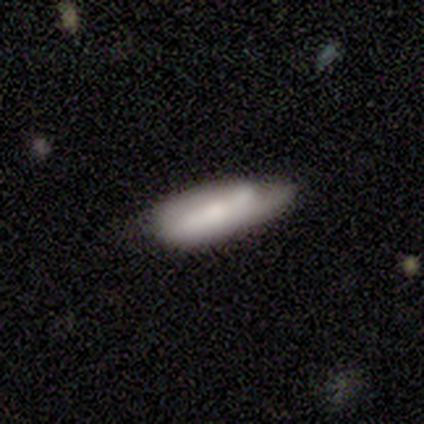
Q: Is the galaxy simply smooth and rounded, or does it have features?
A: smooth — 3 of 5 (60%).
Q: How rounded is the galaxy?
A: in between — 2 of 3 (67%).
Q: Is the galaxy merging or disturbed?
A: none — 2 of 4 (50%, tied with minor disturbance).